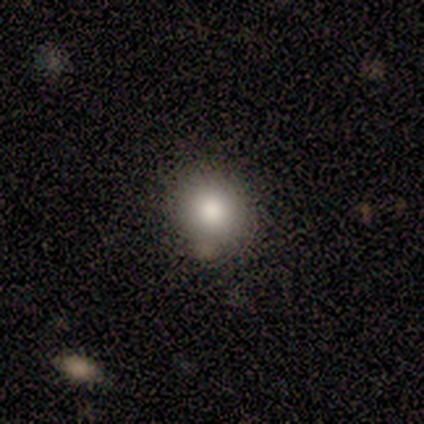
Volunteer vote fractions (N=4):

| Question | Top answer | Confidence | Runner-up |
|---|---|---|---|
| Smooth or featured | smooth | 50% | featured or disk (25%) |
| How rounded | round | 100% | — |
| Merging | none | 67% | minor disturbance (33%) |